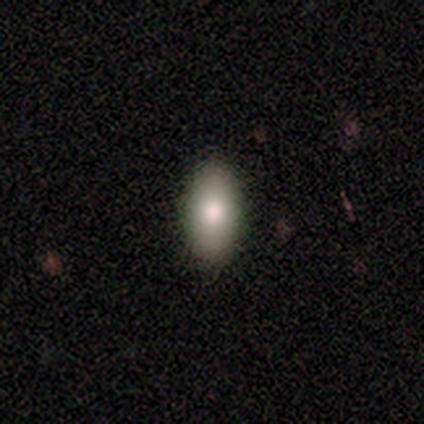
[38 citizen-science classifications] Smooth or featured?
  - smooth: 79% *
  - featured or disk: 13%
  - star or artifact: 8%
How rounded?
  - in between: 97% *
  - cigar-shaped: 3%
  - round: 0%
Merging?
  - none: 60% *
  - minor disturbance: 9%
  - major disturbance: 3%
  - merger: 0%